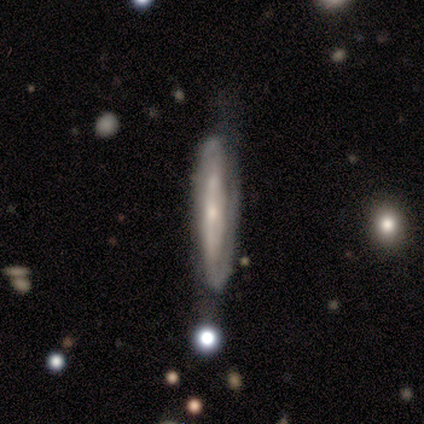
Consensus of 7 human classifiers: smooth-or-featured: featured or disk: 86% | smooth: 14% | star or artifact: 0%
  disk-edge-on: yes: 50% (tied) | no: 50% (tied)
    edge-on-bulge: none: 100% | boxy: 0% | rounded: 0%
  merging: none: 71% | minor disturbance: 14% | major disturbance: 14% | merger: 0%